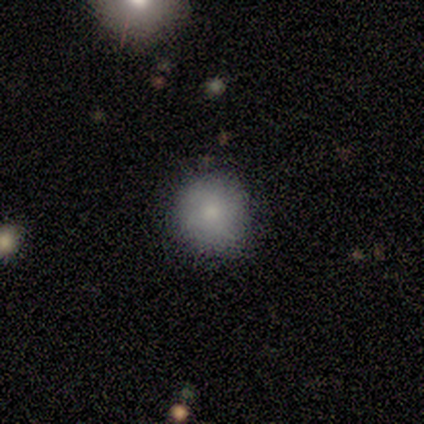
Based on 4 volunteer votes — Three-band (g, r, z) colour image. It shows a star or artifact, not a galaxy (50%).